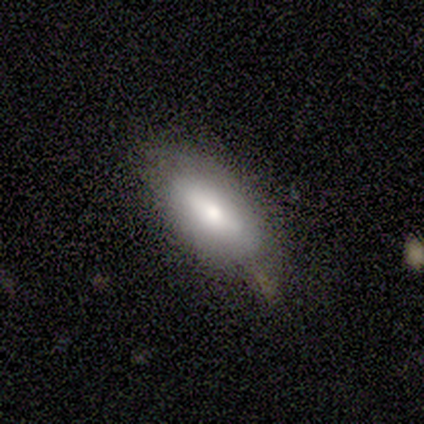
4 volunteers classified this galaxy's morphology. Volunteers were most divided on "smooth or featured" (2-way tie): smooth: 50%, featured or disk: 50%, star or artifact: 0%. More confident: how rounded — in between (100%); merging — minor disturbance (75%).